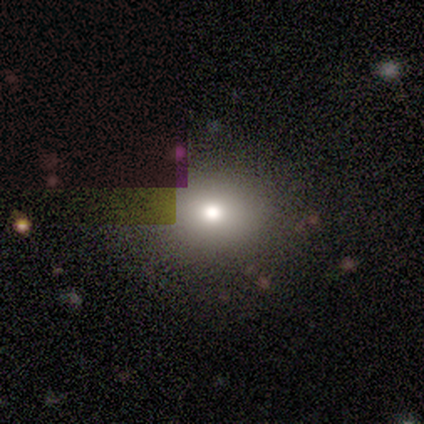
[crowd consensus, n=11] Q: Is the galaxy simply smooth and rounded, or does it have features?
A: smooth — 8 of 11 (73%).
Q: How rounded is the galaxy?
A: round — 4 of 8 (50%, tied with in between).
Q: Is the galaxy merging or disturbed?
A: none — 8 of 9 (89%).